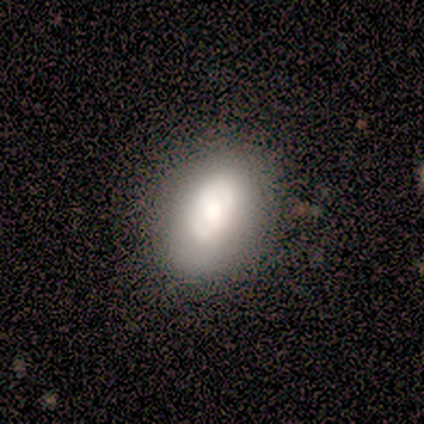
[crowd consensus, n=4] Q: Smooth or featured?
A: smooth (100%)
Q: How rounded?
A: in between (100%)
Q: Merging?
A: none (100%)